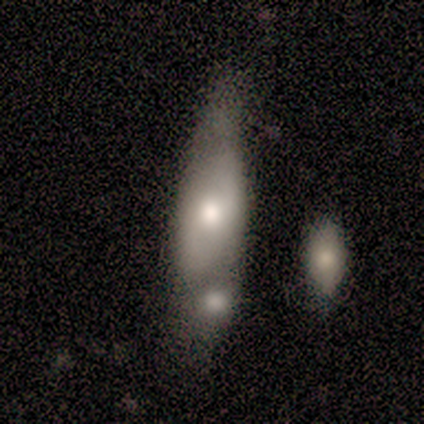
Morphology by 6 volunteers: smooth_or_featured: featured or disk (p=1.00)
disk_edge_on: no (p=0.83) [alt: yes p=0.17]
bar: no (p=1.00)
has_spiral_arms: no (p=0.60) [alt: yes p=0.40]
bulge_size: moderate (p=0.80) [alt: large p=0.20]
merging: major disturbance (p=0.33) [tied with: merger p=0.33]